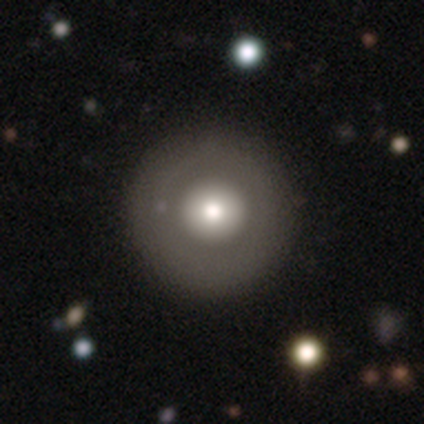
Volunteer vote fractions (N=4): Morphology: type=smooth (75%); roundness=round (100%); merging=none (100%).